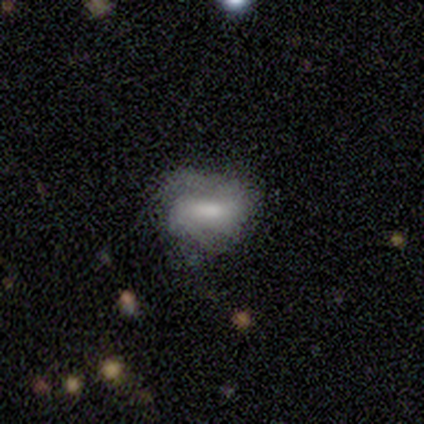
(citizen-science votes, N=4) Morphology: type=smooth (100%); roundness=round (50%, tied with in between); merging=none (50%).